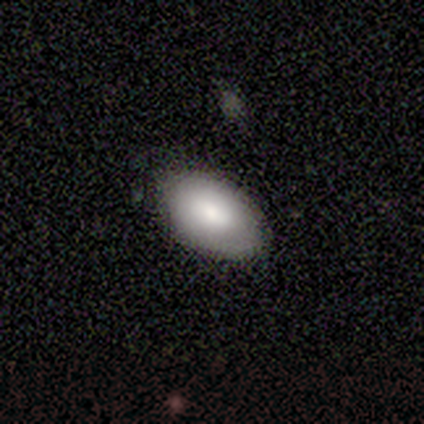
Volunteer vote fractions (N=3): A smooth galaxy with no disk features (100%) that is in between round and cigar-shaped (100%).

Vote fractions:
- Smooth or featured? smooth: 100% / featured or disk: 0% / star or artifact: 0%
- How rounded? in between: 100% / round: 0% / cigar-shaped: 0%
- Merging? none: 67% / minor disturbance: 33% / major disturbance: 0% / merger: 0%